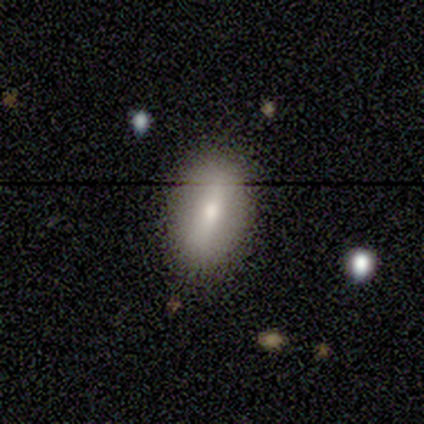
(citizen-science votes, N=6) Overall: smooth (50%; star or artifact 33%). How rounded: in between (100%). Merging: none (75%).